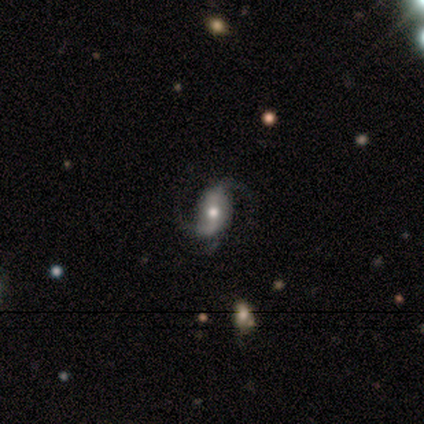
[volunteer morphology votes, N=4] smooth_or_featured: featured or disk (p=0.75) [alt: star or artifact p=0.25]
disk_edge_on: no (p=1.00)
bar: strong (p=0.33) [tied with: weak p=0.33, no p=0.33]
has_spiral_arms: yes (p=1.00)
spiral_winding: medium (p=0.67) [alt: loose p=0.33]
spiral_arm_count: 2 (p=1.00)
bulge_size: moderate (p=0.67) [alt: small p=0.33]
merging: none (p=0.67) [alt: minor disturbance p=0.33]